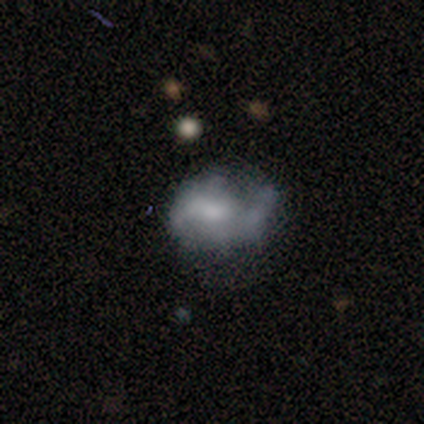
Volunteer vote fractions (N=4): This appears to be a featured or disk galaxy (75%) with a weak bar (67%), 2 (50%, tied with can't tell) medium (50%, tied with loose) spiral arms (67%) and no central bulge (67%). Merging: none (50%).